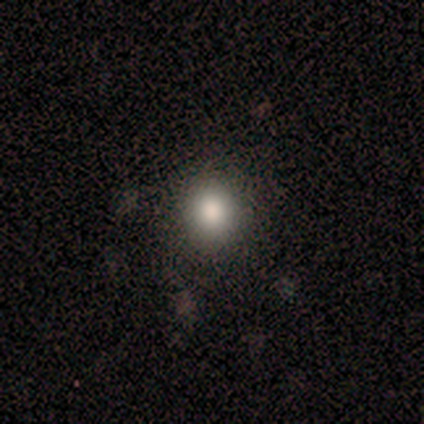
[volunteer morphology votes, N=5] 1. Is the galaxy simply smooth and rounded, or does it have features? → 100% smooth, 0% featured or disk, 0% star or artifact.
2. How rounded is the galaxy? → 100% round, 0% in between, 0% cigar-shaped.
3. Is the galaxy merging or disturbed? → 100% none, 0% minor disturbance, 0% major disturbance, 0% merger.